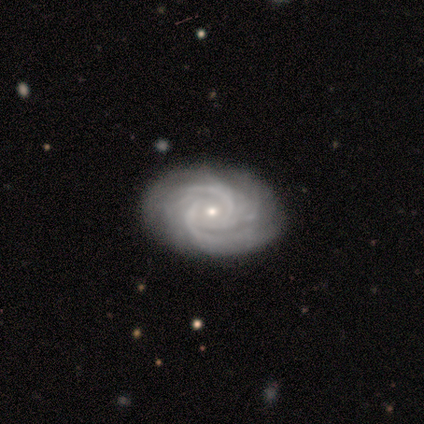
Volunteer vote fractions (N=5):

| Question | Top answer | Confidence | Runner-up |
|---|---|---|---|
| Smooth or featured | featured or disk | 100% | — |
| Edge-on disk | no | 100% | — |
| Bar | no | 100% | — |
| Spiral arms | yes | 100% | — |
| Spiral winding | tight | 80% | medium (20%) |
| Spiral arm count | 3 | 60% | 2 (20%) |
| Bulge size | small | 100% | — |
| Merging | none | 80% | minor disturbance (20%) |